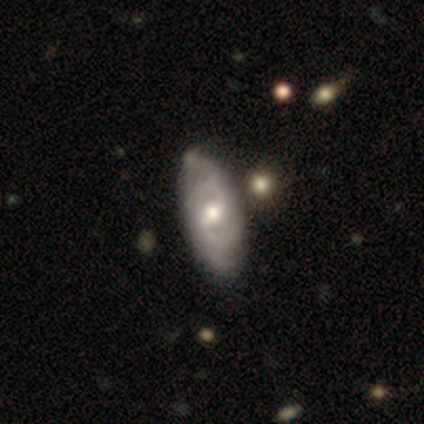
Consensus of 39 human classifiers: Smooth or featured: featured or disk — 95% (smooth — 5%)
Edge-on disk: no — 95% (yes — 5%)
Bar: weak — 63% (no — 31%)
Spiral arms: yes — 83% (no — 17%)
Spiral winding: medium — 52% (tight — 31%)
Spiral arm count: 2 — 76% (can't tell — 17%)
Bulge size: moderate — 77% (small — 17%)
Merging: none — 62% (minor disturbance — 10%)